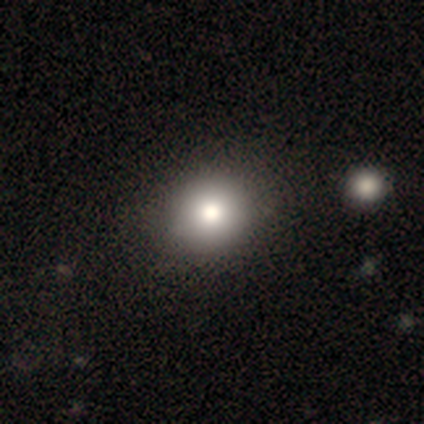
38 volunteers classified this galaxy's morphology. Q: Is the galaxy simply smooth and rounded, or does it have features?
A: smooth — 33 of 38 (87%).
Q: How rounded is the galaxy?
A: round — 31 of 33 (94%).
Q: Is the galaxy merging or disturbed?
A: none — 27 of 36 (75%).